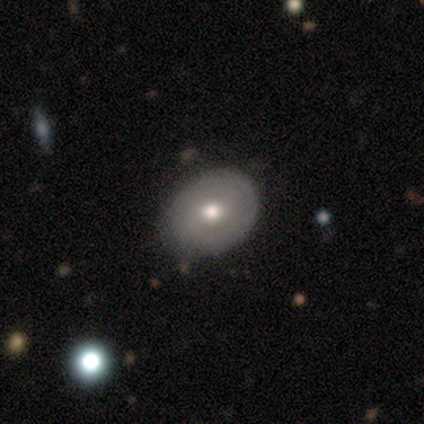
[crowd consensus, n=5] Q: Smooth or featured?
A: smooth (60%); runner-up: featured or disk (40%)
Q: How rounded?
A: in between (67%); runner-up: round (33%)
Q: Merging?
A: none (80%); runner-up: minor disturbance (20%)